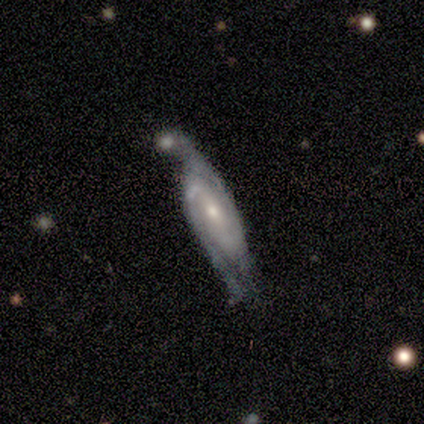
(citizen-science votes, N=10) Morphology: type=featured or disk (80%); edge-on=no (100%); bar=strong (62%); spiral arms=yes (100%); winding=tight (38%, tied with medium); arm count=2 (75%); bulge=moderate (38%, tied with small); merging=minor disturbance (33%, tied with major disturbance).